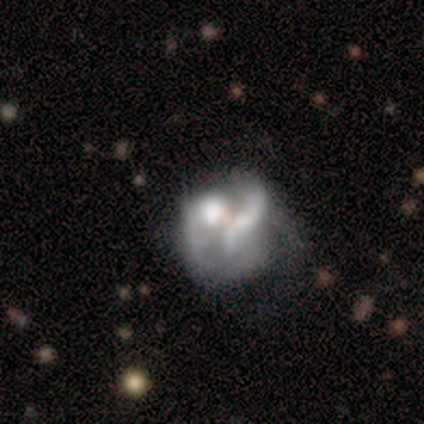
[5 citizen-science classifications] Smooth or featured? 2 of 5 (40%, tied with featured or disk) said smooth. How rounded? 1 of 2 (50%, tied with in between) said round. Merging? 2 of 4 (50%) said minor disturbance.